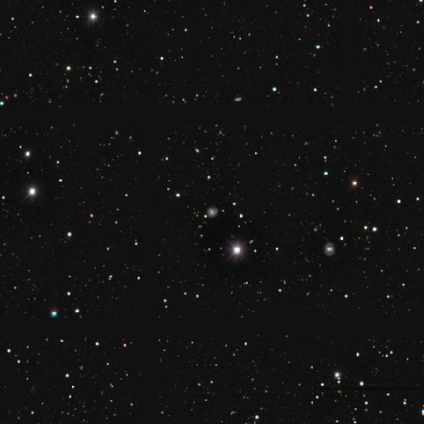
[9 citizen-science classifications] A smooth galaxy with no disk features (33%, tied with featured or disk and star or artifact) that is round (100%).

Vote fractions:
- Smooth or featured? smooth: 33% (tied) / featured or disk: 33% (tied) / star or artifact: 33% (tied)
- How rounded? round: 100% / in between: 0% / cigar-shaped: 0%
- Merging? none: 100% / minor disturbance: 0% / major disturbance: 0% / merger: 0%